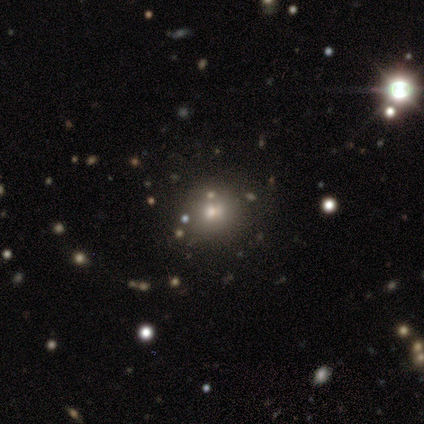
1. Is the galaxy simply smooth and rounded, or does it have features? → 57% star or artifact, 43% smooth, 0% featured or disk.